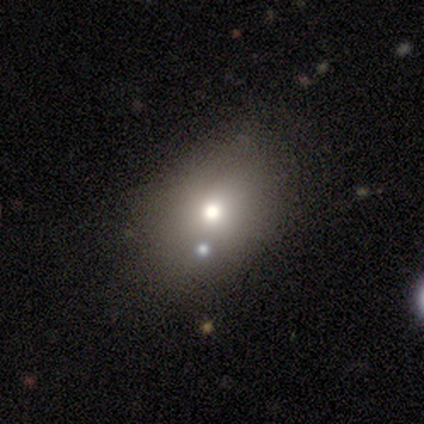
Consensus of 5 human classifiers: A smooth galaxy with no disk features (60%) that is in between round and cigar-shaped (67%).

Vote fractions:
- Smooth or featured? smooth: 60% / featured or disk: 40% / star or artifact: 0%
- How rounded? in between: 67% / round: 33% / cigar-shaped: 0%
- Merging? none: 100% / minor disturbance: 0% / major disturbance: 0% / merger: 0%